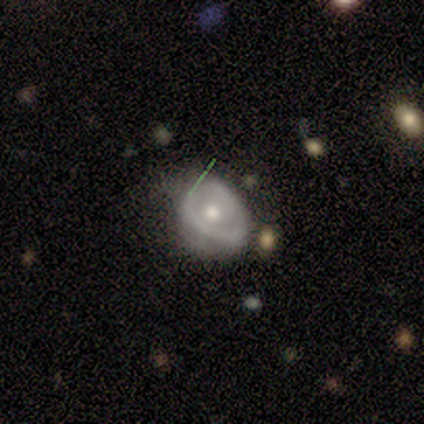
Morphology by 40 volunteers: featured or disk 62%, smooth 30%, star or artifact 8%. Down the decision tree: edge-on disk — no (96%); bar — no (58%); spiral arms — no (71%); bulge size — moderate (75%); merging — minor disturbance (41%).